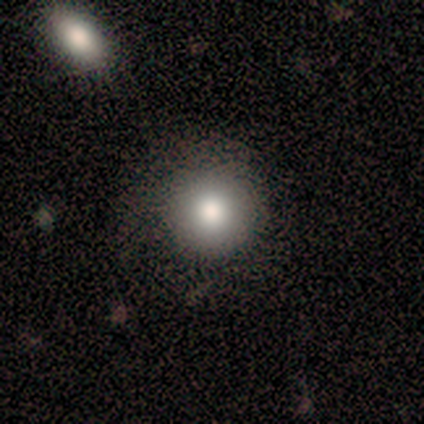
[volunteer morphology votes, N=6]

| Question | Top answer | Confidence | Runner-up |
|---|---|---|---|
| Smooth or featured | smooth | 83% | featured or disk (17%) |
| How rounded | round | 100% | — |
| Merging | none | 100% | — |